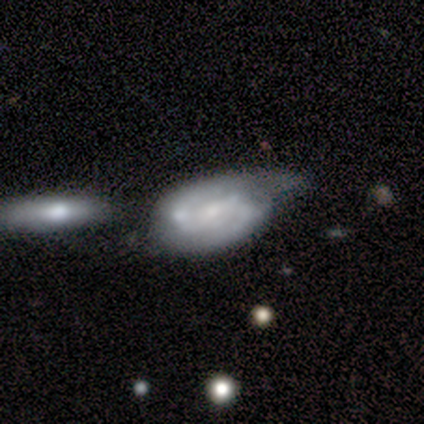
Smooth or featured? featured or disk (100%)
Edge-on disk? no (100%)
Bar? strong (40%, tied with weak)
Spiral arms? yes (100%)
Spiral winding? tight (60%)
Spiral arm count? 2 (60%)
Bulge size? none (60%)
Merging? merger (60%)